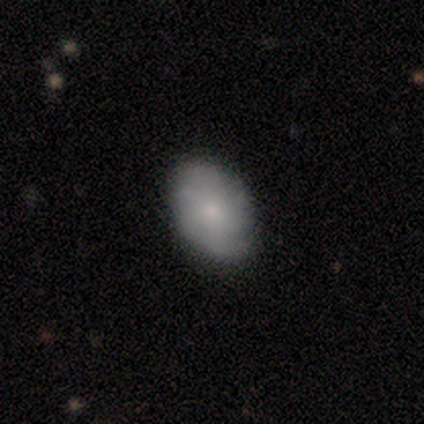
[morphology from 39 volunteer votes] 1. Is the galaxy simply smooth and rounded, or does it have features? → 62% smooth, 36% featured or disk, 3% star or artifact.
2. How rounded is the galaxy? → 96% in between, 4% round, 0% cigar-shaped.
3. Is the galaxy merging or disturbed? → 84% none, 13% minor disturbance, 3% major disturbance, 0% merger.